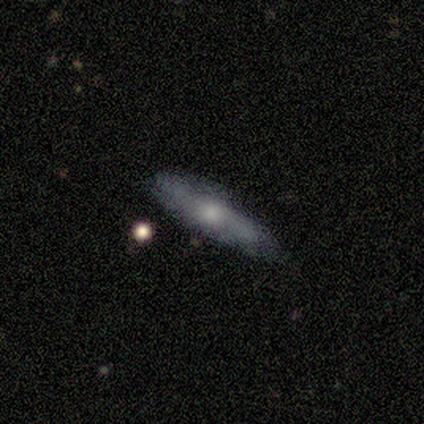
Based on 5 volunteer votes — A featured or disk galaxy (80%) viewed edge-on (75%) with a rounded central bulge (100%). Merging: none (60%).